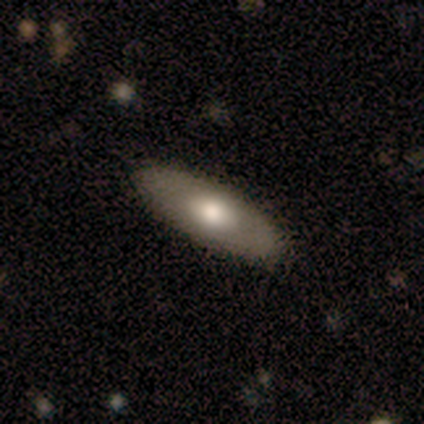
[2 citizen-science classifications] smooth_or_featured: smooth (p=0.50) [tied with: featured or disk p=0.50]
how_rounded: in between (p=1.00)
merging: none (p=1.00)